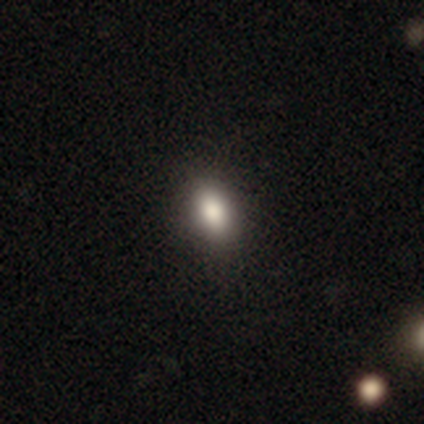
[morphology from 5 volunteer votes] smooth-or-featured: smooth: 100% | featured or disk: 0% | star or artifact: 0%
  how-rounded: in between: 80% | round: 20% | cigar-shaped: 0%
  merging: none: 100% | minor disturbance: 0% | major disturbance: 0% | merger: 0%